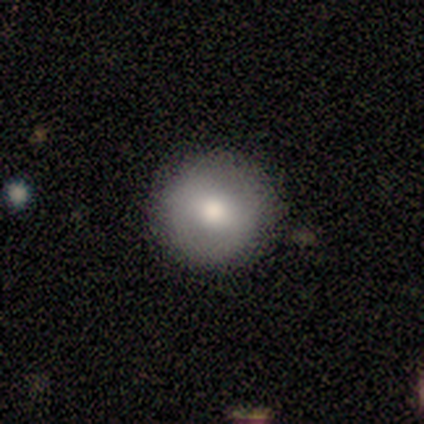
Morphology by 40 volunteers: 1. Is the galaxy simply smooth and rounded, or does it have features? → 75% smooth, 18% featured or disk, 8% star or artifact.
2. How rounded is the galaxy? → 100% round, 0% in between, 0% cigar-shaped.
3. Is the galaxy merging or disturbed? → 95% none, 3% minor disturbance, 3% major disturbance, 0% merger.